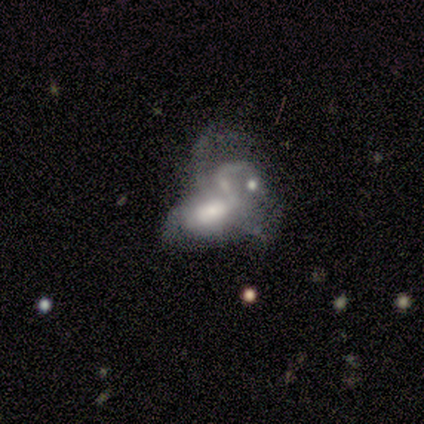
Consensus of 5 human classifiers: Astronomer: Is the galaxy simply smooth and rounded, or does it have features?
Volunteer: featured or disk — 60% (runner-up: smooth, 40%).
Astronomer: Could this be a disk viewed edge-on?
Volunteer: no — 100%.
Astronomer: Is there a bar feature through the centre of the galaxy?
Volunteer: no — 67%.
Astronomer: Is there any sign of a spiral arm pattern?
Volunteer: yes — 100%.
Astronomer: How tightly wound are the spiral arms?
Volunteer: tight — 67%.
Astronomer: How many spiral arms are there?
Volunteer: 1 — 33%, tied with 2 and can't tell at 33%.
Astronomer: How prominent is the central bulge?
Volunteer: large — 100%.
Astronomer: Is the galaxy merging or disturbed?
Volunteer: merger — 60%.